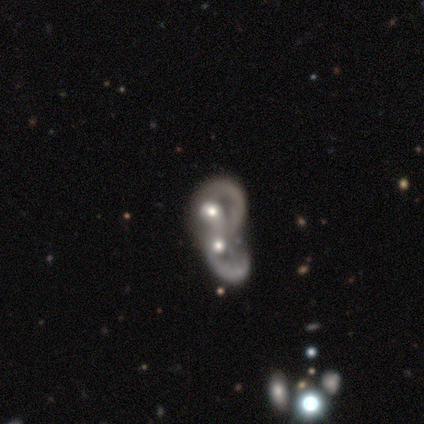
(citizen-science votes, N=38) A featured or disk galaxy (68%) with no bar (96%), no spiral arms (62%) and a moderate central bulge (83%).

Vote fractions:
- Smooth or featured? featured or disk: 68% / star or artifact: 18% / smooth: 13%
- Edge-on disk? no: 92% / yes: 8%
- Bar? no: 96% / weak: 4% / strong: 0%
- Spiral arms? no: 62% / yes: 38%
- Bulge size? moderate: 83% / none: 12% / small: 4% / dominant: 0% / large: 0%
- Merging? merger: 84% / minor disturbance: 6% / major disturbance: 6% / none: 3%